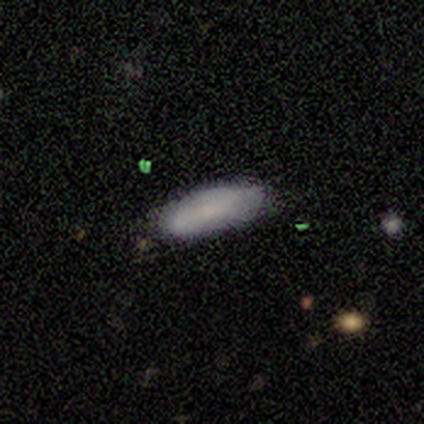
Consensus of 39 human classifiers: Morphology: type=smooth (82%); roundness=in between (62%); merging=none (78%).